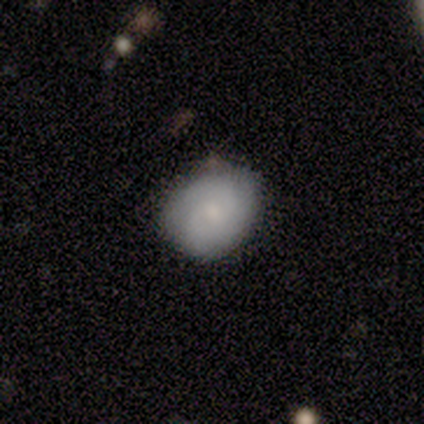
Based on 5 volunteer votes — smooth_or_featured: smooth (p=0.80) [alt: featured or disk p=0.20]
how_rounded: round (p=0.75) [alt: in between p=0.25]
merging: none (p=1.00)